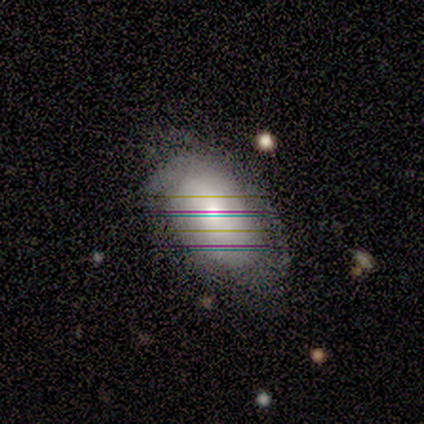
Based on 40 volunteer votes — Smooth or featured?
  - smooth: 48% *
  - featured or disk: 35%
  - star or artifact: 18%
How rounded?
  - in between: 89% *
  - round: 11%
  - cigar-shaped: 0%
Merging?
  - none: 52% *
  - minor disturbance: 33%
  - major disturbance: 15%
  - merger: 0%